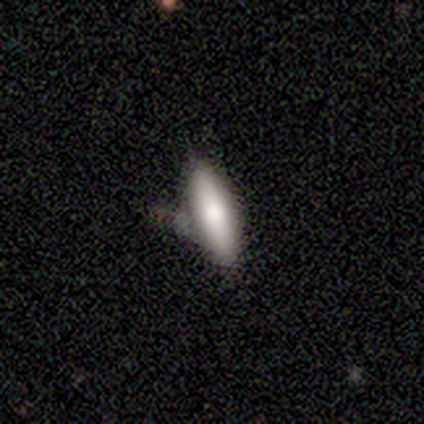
smooth-or-featured: smooth: 76% | featured or disk: 24% | star or artifact: 0%
  how-rounded: cigar-shaped: 69% | in between: 31% | round: 0%
  merging: none: 59% | minor disturbance: 29% | major disturbance: 12% | merger: 0%